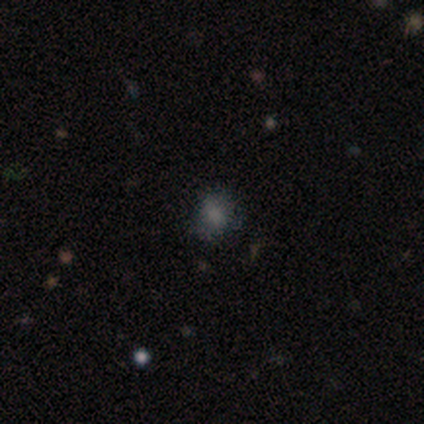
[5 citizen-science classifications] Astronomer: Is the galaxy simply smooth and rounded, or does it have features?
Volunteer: smooth — 80%.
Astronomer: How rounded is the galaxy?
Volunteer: round — 75%.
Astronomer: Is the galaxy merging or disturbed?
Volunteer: none — 100%.